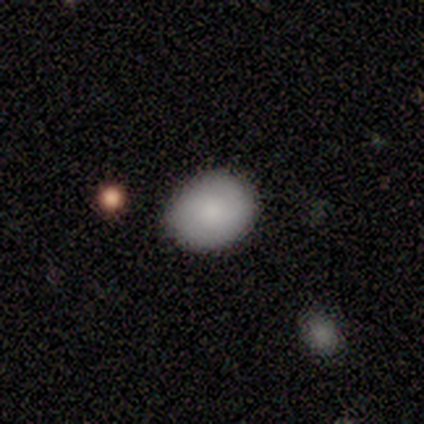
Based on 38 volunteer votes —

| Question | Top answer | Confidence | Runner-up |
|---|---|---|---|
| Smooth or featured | smooth | 82% | featured or disk (13%) |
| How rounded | in between | 58% | round (42%) |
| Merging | none | 86% | minor disturbance (11%) |